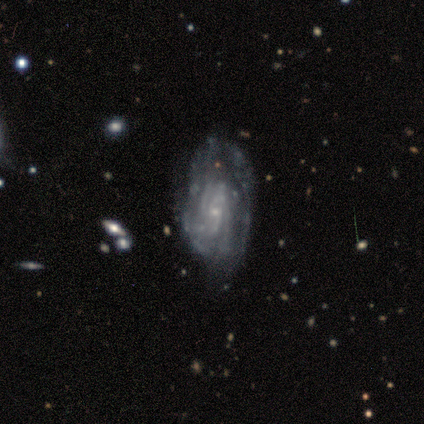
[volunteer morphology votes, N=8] This is clearly a featured or disk galaxy (100%). It is clearly not viewed edge-on (100%). Bar: likely weak (62%). Spiral arm pattern: clearly yes (100%). Spiral arm count: marginally 3 (38%, tied with can't tell). Spiral winding: clearly tight (88%). Central bulge: clearly small (88%). Merging: marginally none (38%, tied with minor disturbance).